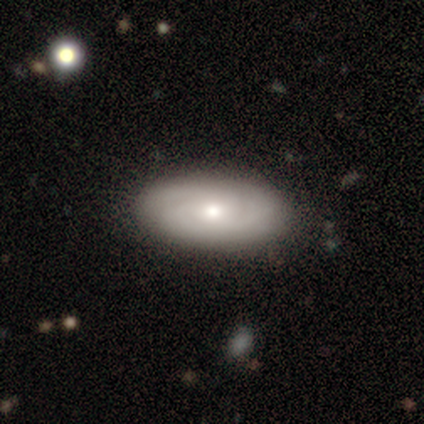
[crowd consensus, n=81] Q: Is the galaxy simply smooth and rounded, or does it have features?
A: featured or disk — 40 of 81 (49%).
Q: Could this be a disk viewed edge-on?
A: no — 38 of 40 (95%).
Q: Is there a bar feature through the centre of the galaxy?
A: no — 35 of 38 (92%).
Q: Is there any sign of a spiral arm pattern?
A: yes — 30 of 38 (79%).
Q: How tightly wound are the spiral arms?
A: tight — 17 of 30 (57%).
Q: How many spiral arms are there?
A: can't tell — 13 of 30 (43%).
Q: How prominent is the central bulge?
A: moderate — 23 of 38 (61%).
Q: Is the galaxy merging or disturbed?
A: none — 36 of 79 (46%).